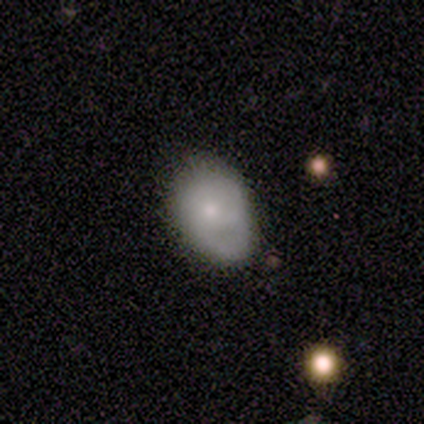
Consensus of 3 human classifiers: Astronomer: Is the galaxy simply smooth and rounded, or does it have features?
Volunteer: smooth — 67%.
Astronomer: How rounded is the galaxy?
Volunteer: in between — 100%.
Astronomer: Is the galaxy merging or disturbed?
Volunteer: minor disturbance — 100%.